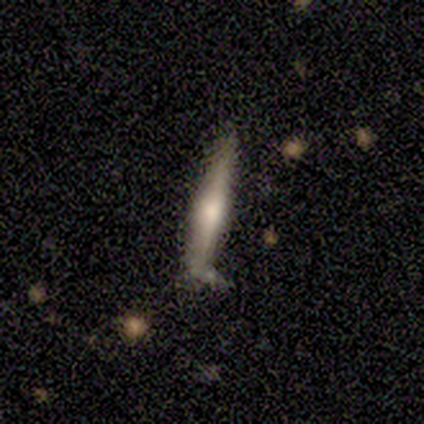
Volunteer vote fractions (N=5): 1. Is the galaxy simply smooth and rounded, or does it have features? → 80% smooth, 20% featured or disk, 0% star or artifact.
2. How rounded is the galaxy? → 100% cigar-shaped, 0% round, 0% in between.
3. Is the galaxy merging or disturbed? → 80% none, 20% merger, 0% minor disturbance, 0% major disturbance.